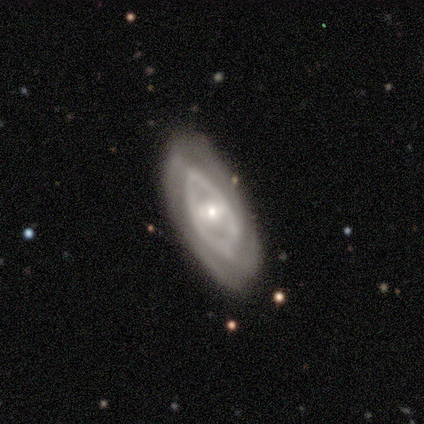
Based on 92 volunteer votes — Smooth or featured: featured or disk — 82% (smooth — 12%)
Edge-on disk: no — 96% (yes — 4%)
Bar: weak — 43% (no — 38%)
Spiral arms: yes — 65% (no — 35%)
Spiral winding: tight — 66% (medium — 19%)
Spiral arm count: 2 — 40% (can't tell — 30%)
Bulge size: moderate — 56% (small — 40%)
Merging: none — 70% (minor disturbance — 29%)